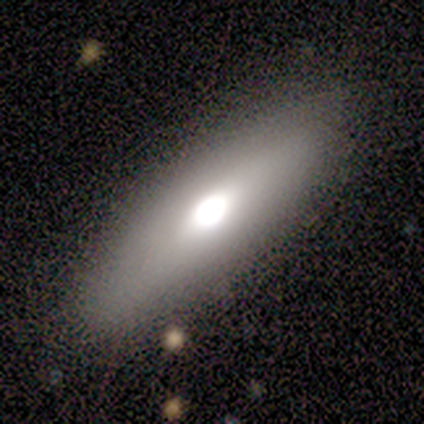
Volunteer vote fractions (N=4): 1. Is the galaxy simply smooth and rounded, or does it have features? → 50% smooth, 25% featured or disk, 25% star or artifact.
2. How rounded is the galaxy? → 50% in between (tied), 50% cigar-shaped (tied), 0% round.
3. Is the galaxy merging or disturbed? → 100% none, 0% minor disturbance, 0% major disturbance, 0% merger.